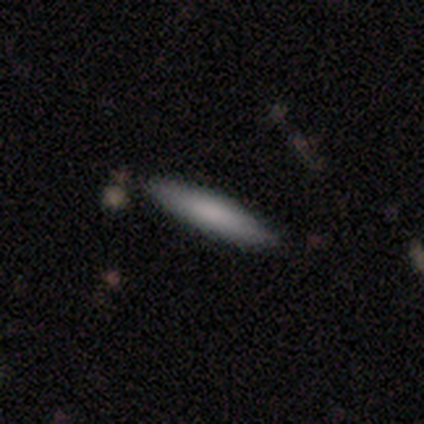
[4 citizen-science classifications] Overall: smooth (100%). How rounded: in between (50%, tied with cigar-shaped). Merging: none (100%).